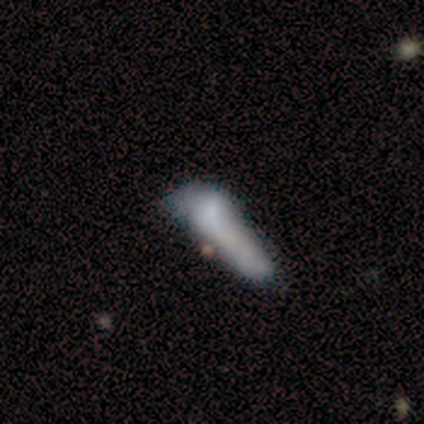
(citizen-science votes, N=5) smooth_or_featured: smooth (p=0.60) [alt: featured or disk p=0.20]
how_rounded: in between (p=0.67) [alt: cigar-shaped p=0.33]
merging: none (p=0.50) [tied with: minor disturbance p=0.50]